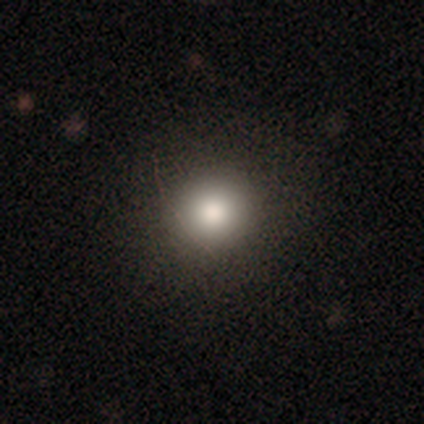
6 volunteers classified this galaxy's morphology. type=smooth (83%); roundness=round (80%); merging=none (100%).